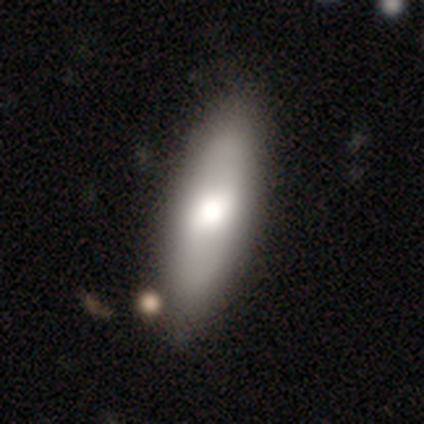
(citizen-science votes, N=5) Morphology: type=smooth (60%); roundness=in between (100%); merging=none (100%).